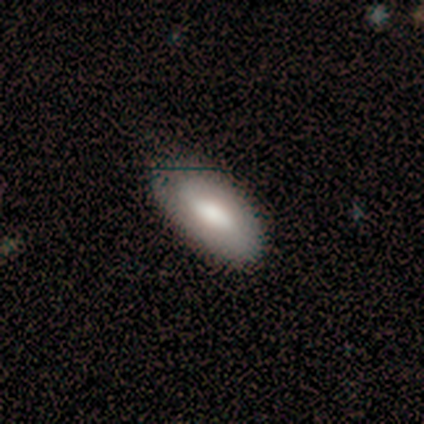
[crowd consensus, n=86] Volunteers were most divided on "smooth or featured": smooth: 76%, featured or disk: 20%, star or artifact: 5%. More confident: how rounded — in between (89%); merging — none (82%).